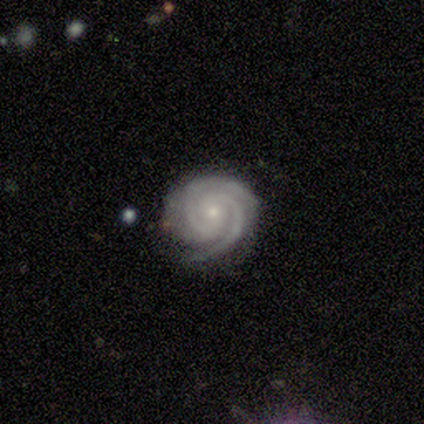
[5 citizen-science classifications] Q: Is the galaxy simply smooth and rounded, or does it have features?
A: featured or disk — 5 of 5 (100%).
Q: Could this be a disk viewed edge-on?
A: no — 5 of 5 (100%).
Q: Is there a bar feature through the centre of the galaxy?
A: weak — 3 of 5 (60%).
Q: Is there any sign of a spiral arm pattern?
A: yes — 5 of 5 (100%).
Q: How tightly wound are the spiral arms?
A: tight — 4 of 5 (80%).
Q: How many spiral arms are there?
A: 2 — 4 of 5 (80%).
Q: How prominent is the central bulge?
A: small — 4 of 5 (80%).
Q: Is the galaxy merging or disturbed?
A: none — 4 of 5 (80%).